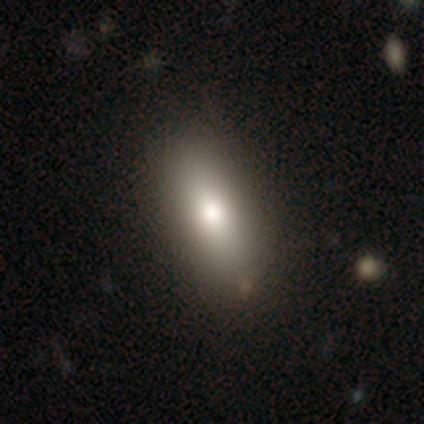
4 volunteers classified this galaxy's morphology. Smooth or featured?
  - smooth: 100% *
  - featured or disk: 0%
  - star or artifact: 0%
How rounded?
  - in between: 75% *
  - cigar-shaped: 25%
  - round: 0%
Merging?
  - none: 100% *
  - minor disturbance: 0%
  - major disturbance: 0%
  - merger: 0%